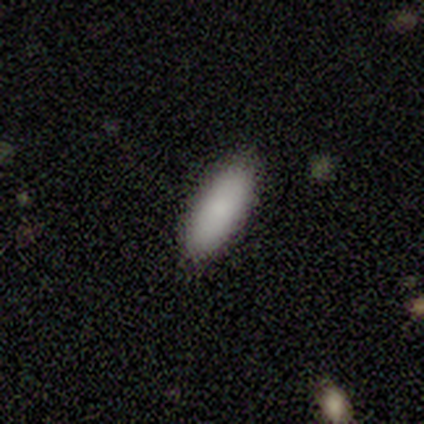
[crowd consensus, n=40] This is clearly a smooth galaxy (95%). How rounded: likely in between (76%). Merging: clearly none (90%).